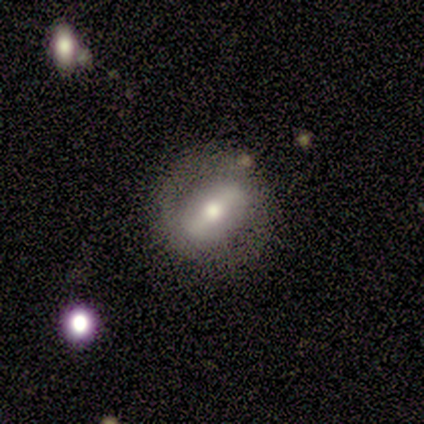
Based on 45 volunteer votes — Smooth or featured? 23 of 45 (51%) said featured or disk. Edge-on disk? 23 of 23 (100%) said no. Bar? 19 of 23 (83%) said strong. Spiral arms? 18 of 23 (78%) said no. Bulge size? 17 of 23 (74%) said moderate. Merging? 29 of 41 (71%) said none.